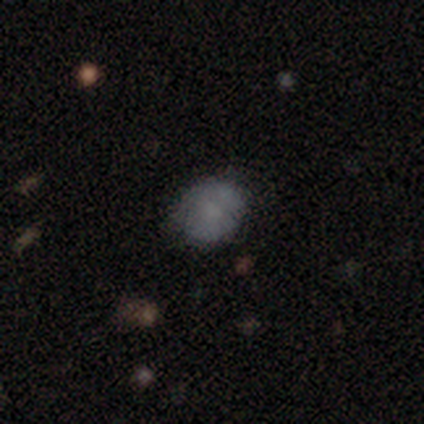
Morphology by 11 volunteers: Smooth or featured? 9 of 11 (82%) said smooth. How rounded? 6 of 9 (67%) said round. Merging? 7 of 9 (78%) said none.